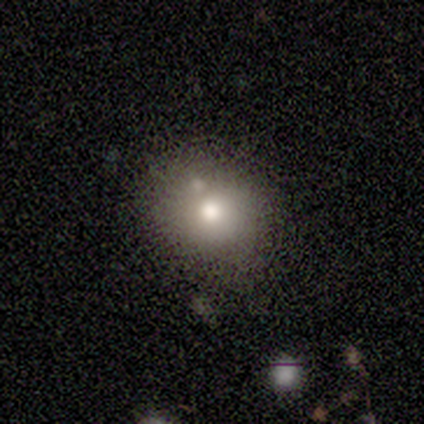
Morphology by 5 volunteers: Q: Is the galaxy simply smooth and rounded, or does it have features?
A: smooth — 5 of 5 (100%).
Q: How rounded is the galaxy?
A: in between — 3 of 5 (60%).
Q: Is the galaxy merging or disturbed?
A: none — 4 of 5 (80%).